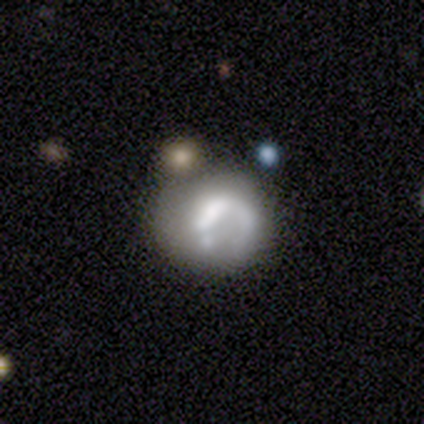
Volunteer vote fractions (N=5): Smooth or featured? 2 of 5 (40%, tied with featured or disk) said smooth. How rounded? 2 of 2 (100%) said round. Merging? 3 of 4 (75%) said minor disturbance.